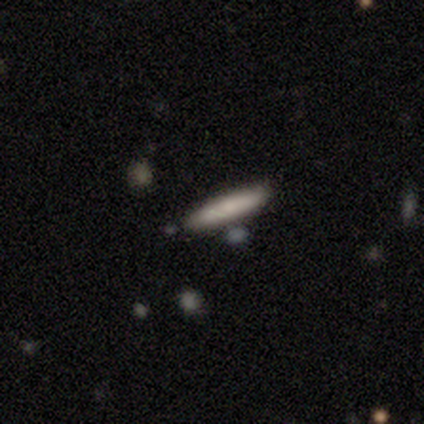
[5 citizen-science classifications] Smooth or featured? featured or disk (60%)
Edge-on disk? yes (67%)
Edge-on bulge? none (50%, tied with rounded)
Merging? none (80%)